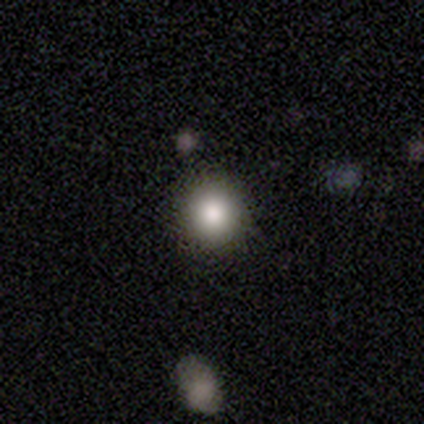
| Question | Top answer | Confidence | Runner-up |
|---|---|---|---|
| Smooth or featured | smooth | 82% | featured or disk (11%) |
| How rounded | round | 97% | in between (3%) |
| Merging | none | 91% | minor disturbance (9%) |